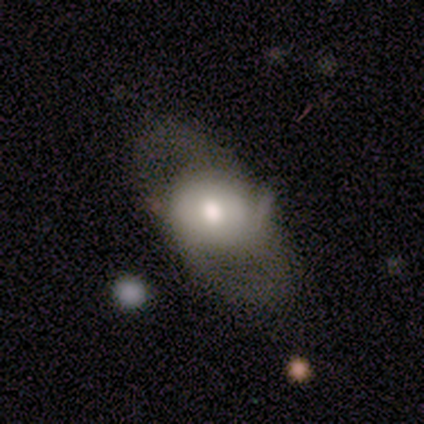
This appears to be a featured or disk galaxy (60%) with no bar (100%), no spiral arms (67%) and a small central bulge (67%). Merging: none (40%).